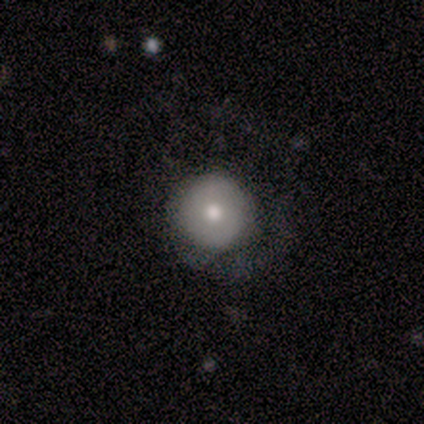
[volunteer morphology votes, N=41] Smooth or featured: featured or disk — 51% (smooth — 46%)
Edge-on disk: no — 95% (yes — 5%)
Bar: no — 90% (weak — 10%)
Spiral arms: no — 60% (yes — 40%)
Bulge size: moderate — 85% (small — 10%)
Merging: none — 45% (major disturbance — 35%)